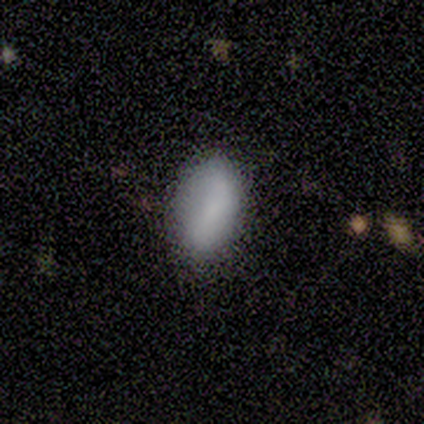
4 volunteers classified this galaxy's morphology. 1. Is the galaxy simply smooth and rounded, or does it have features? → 100% smooth, 0% featured or disk, 0% star or artifact.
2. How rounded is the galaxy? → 100% in between, 0% round, 0% cigar-shaped.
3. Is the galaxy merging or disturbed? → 50% none (tied), 50% minor disturbance (tied), 0% major disturbance, 0% merger.